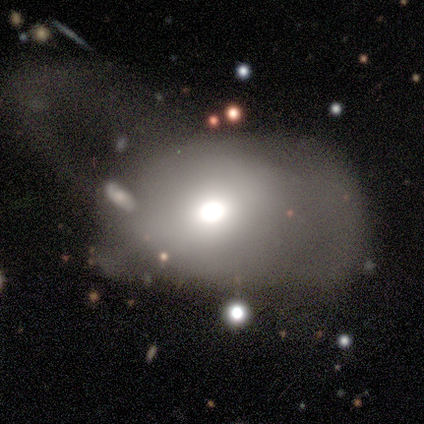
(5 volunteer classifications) Morphology: type=smooth (40%, tied with star or artifact); roundness=round (50%, tied with in between); merging=major disturbance (100%).